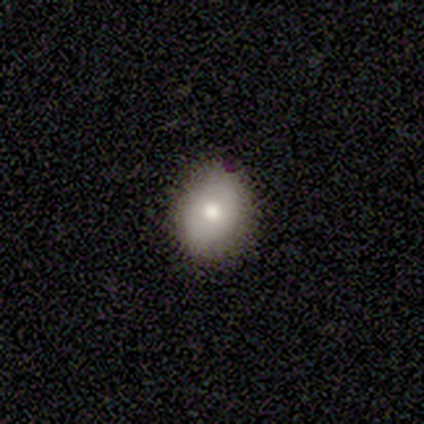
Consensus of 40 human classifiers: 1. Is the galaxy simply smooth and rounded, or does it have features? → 72% smooth, 20% featured or disk, 8% star or artifact.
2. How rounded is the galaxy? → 66% round, 34% in between, 0% cigar-shaped.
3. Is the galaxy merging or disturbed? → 78% none, 16% minor disturbance, 3% major disturbance, 3% merger.